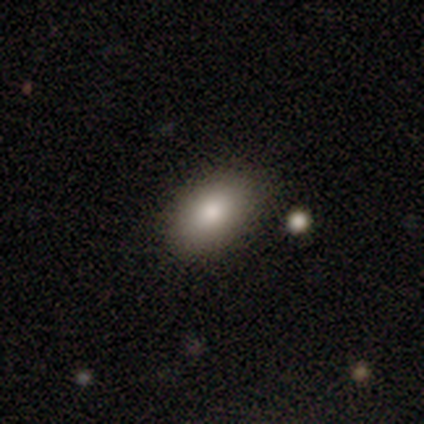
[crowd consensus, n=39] smooth 82%, featured or disk 10%, star or artifact 8%. Down the decision tree: how rounded — in between (81%); merging — none (81%).